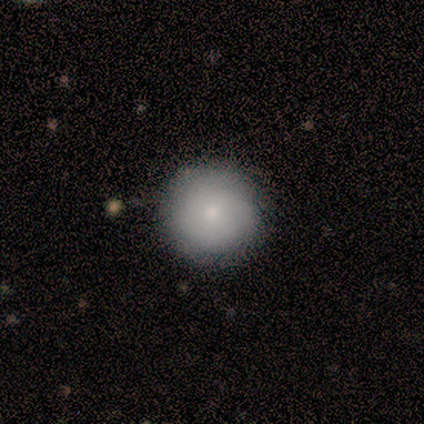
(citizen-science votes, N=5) smooth_or_featured: smooth (p=0.80) [alt: star or artifact p=0.20]
how_rounded: round (p=1.00)
merging: none (p=0.75) [alt: minor disturbance p=0.25]